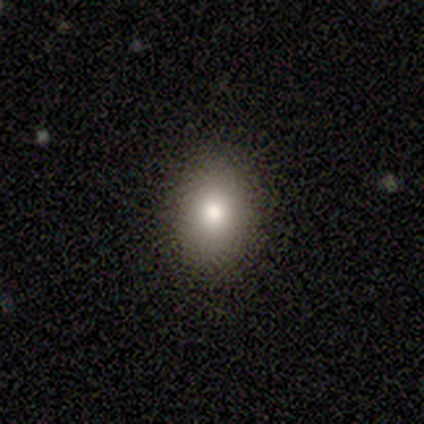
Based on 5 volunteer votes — Smooth or featured: smooth — 80% (star or artifact — 20%)
How rounded: round — 50% (tied with in between — 50%)
Merging: none — 100%